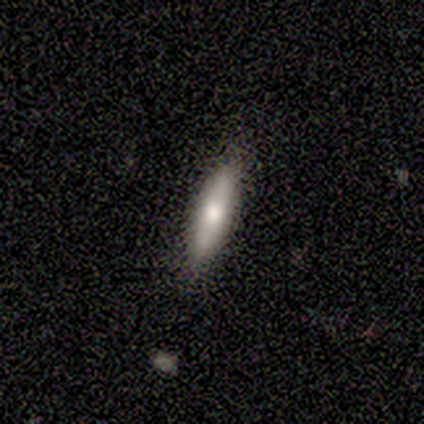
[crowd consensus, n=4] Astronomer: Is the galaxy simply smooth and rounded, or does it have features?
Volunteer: smooth — 100%.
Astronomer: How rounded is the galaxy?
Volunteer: in between — 50%, tied with cigar-shaped at 50%.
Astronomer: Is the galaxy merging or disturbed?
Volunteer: none — 75%.